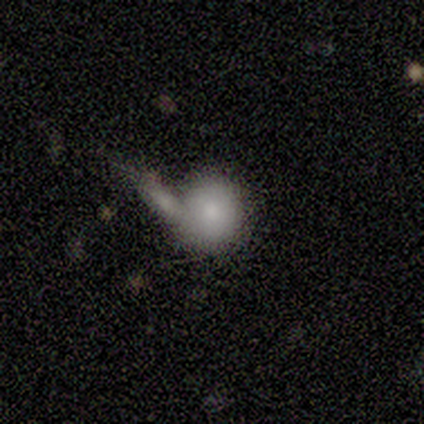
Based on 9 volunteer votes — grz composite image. It shows a smooth galaxy with no disk features (78%) that is round (86%). Merging: merger (78%).